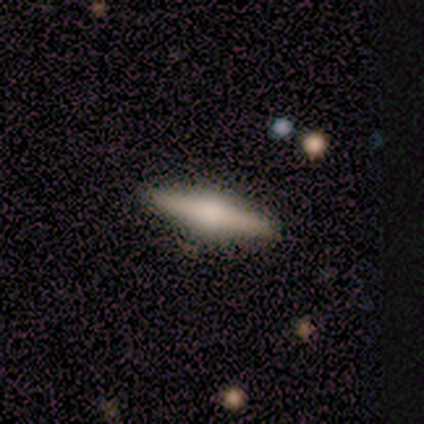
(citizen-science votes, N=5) This is likely a featured or disk galaxy (60%). It is clearly viewed edge-on (100%). Edge-on bulge: clearly rounded (100%). Merging: clearly none (100%).